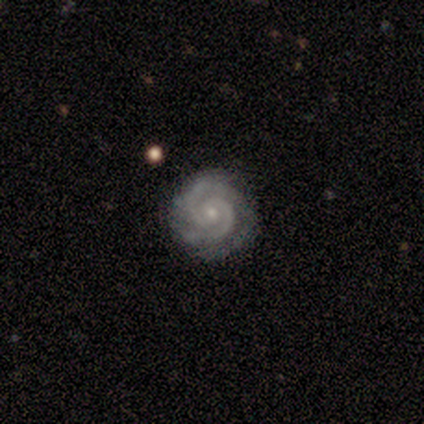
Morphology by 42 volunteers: Smooth or featured: featured or disk — 93% (star or artifact — 5%)
Edge-on disk: no — 100%
Bar: no — 79% (weak — 18%)
Spiral arms: yes — 100%
Spiral winding: tight — 85% (medium — 15%)
Spiral arm count: 2 — 82% (3 — 18%)
Bulge size: small — 72% (moderate — 23%)
Merging: none — 88% (minor disturbance — 12%)